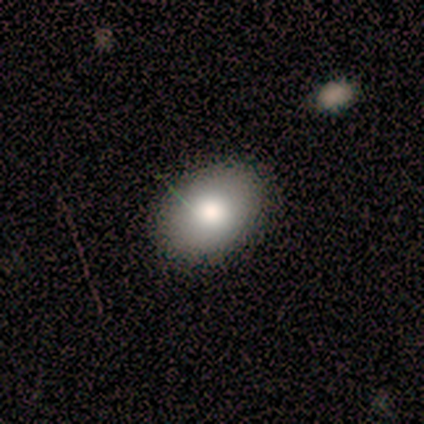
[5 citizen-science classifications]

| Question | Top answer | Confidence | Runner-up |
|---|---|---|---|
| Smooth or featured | smooth | 80% | featured or disk (20%) |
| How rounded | in between | 75% | round (25%) |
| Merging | none | 80% | minor disturbance (20%) |